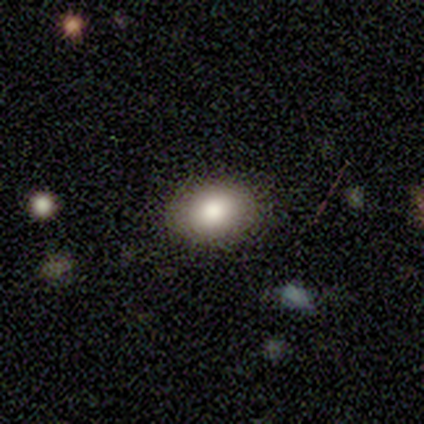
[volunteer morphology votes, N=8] Volunteers were most divided on "smooth or featured": smooth: 75%, featured or disk: 25%, star or artifact: 0%. More confident: merging — none (100%); how rounded — in between (83%).